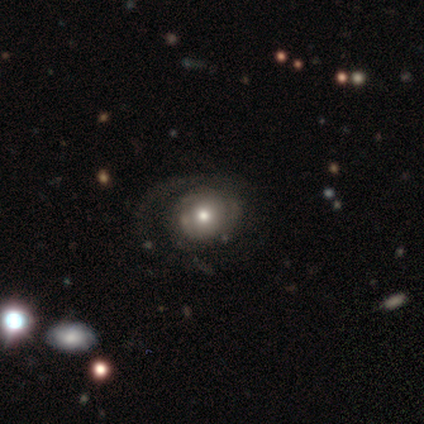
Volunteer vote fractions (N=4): This is likely a featured or disk galaxy (75%). It is clearly not viewed edge-on (100%). Bar: clearly no (100%). Spiral arm pattern: likely yes (67%). Spiral arm count: possibly 1 (50%, tied with 2). Spiral winding: clearly medium (100%). Central bulge: clearly moderate (100%). Merging: likely none (75%).